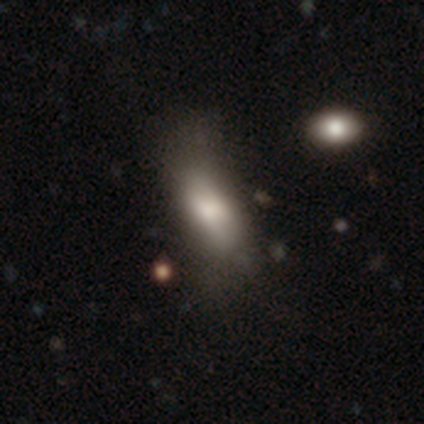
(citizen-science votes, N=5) smooth_or_featured: smooth (p=0.80) [alt: featured or disk p=0.20]
how_rounded: in between (p=0.50) [tied with: cigar-shaped p=0.50]
merging: none (p=0.40) [tied with: major disturbance p=0.40]